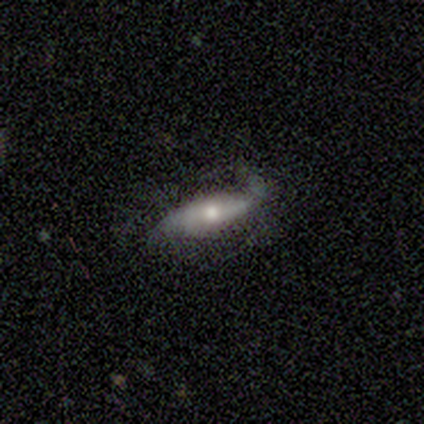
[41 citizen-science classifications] smooth_or_featured: featured or disk (p=0.68) [alt: smooth p=0.24]
disk_edge_on: no (p=0.79) [alt: yes p=0.21]
bar: no (p=0.41) [alt: strong p=0.32]
has_spiral_arms: yes (p=0.73) [alt: no p=0.27]
spiral_winding: loose (p=0.69) [alt: medium p=0.19]
spiral_arm_count: 2 (p=0.88) [alt: 1 p=0.06]
bulge_size: moderate (p=0.77) [alt: small p=0.18]
merging: none (p=0.50) [alt: minor disturbance p=0.29]